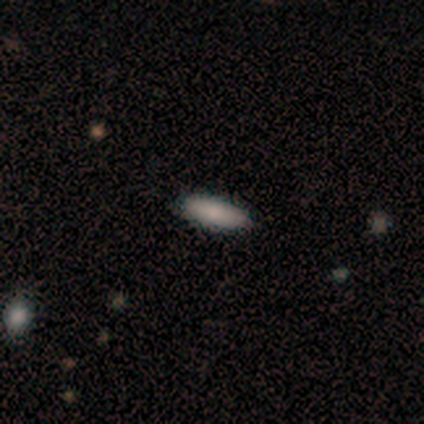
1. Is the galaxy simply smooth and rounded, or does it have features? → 80% smooth, 20% star or artifact, 0% featured or disk.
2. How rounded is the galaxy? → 75% in between, 25% cigar-shaped, 0% round.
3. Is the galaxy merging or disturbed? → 100% none, 0% minor disturbance, 0% major disturbance, 0% merger.